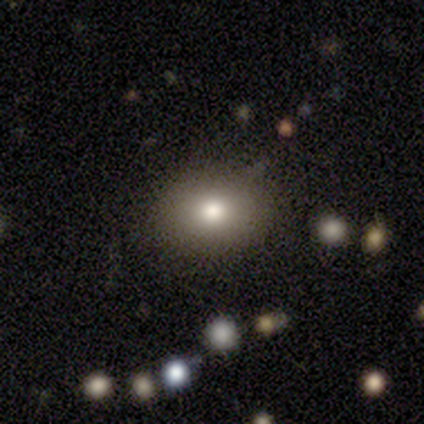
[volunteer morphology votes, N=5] Smooth or featured? smooth (80%)
How rounded? in between (100%)
Merging? none (75%)